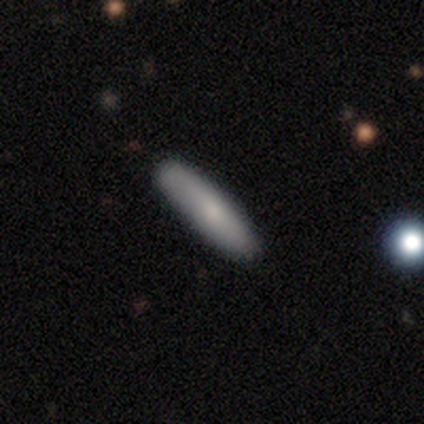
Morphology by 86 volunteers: Overall: smooth (81%). How rounded: cigar-shaped (89%). Merging: none (89%).